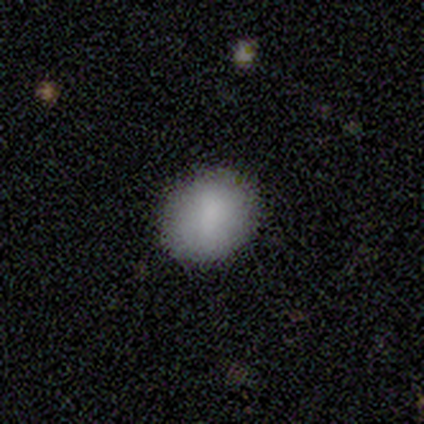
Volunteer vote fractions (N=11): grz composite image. It shows a smooth galaxy with no disk features (82%) that is in between round and cigar-shaped (67%). Merging: none (82%).